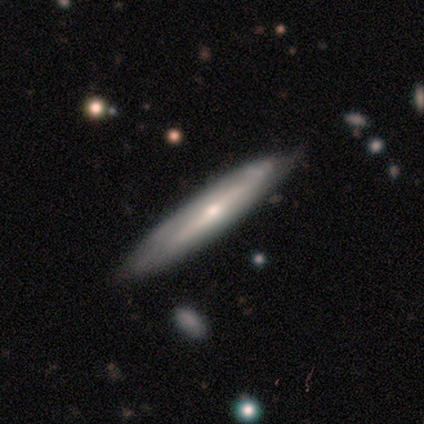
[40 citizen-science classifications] A featured or disk galaxy (57%) viewed edge-on (87%) with a rounded central bulge (50%). Merging: none (78%).